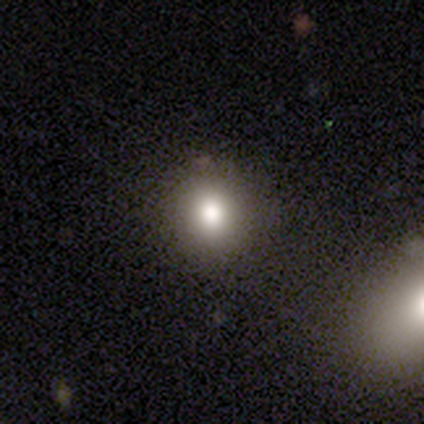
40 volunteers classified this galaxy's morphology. This is likely a smooth galaxy (72%). How rounded: clearly round (86%). Merging: clearly none (88%).